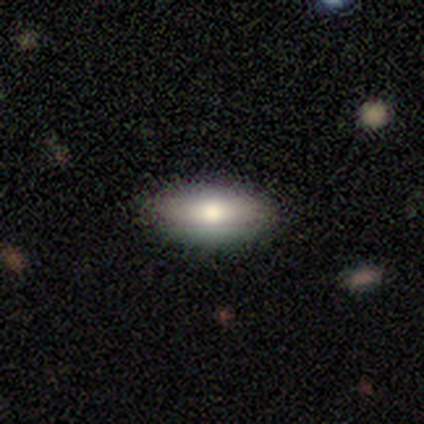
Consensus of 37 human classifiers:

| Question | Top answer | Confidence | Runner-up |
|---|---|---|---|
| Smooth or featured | smooth | 81% | featured or disk (11%) |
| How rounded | in between | 83% | round (13%) |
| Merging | none | 91% | minor disturbance (6%) |